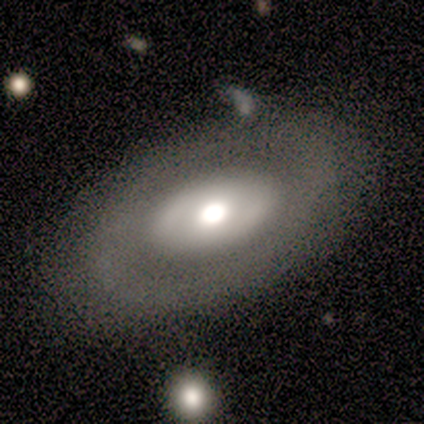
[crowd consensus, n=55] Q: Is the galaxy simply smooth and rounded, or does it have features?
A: featured or disk — 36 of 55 (65%).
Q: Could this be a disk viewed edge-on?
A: no — 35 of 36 (97%).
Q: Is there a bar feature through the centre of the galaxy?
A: no — 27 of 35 (77%).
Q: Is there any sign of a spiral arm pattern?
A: no — 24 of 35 (69%).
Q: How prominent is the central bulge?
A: moderate — 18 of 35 (51%).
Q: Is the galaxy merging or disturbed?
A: none — 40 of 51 (78%).